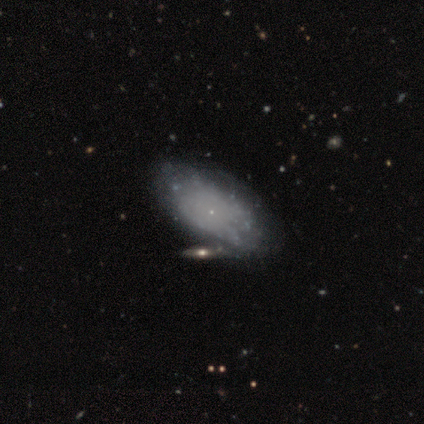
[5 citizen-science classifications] Smooth or featured? featured or disk (100%)
Edge-on disk? no (100%)
Bar? no (100%)
Spiral arms? no (80%)
Bulge size? none (60%)
Merging? none (40%, tied with merger)